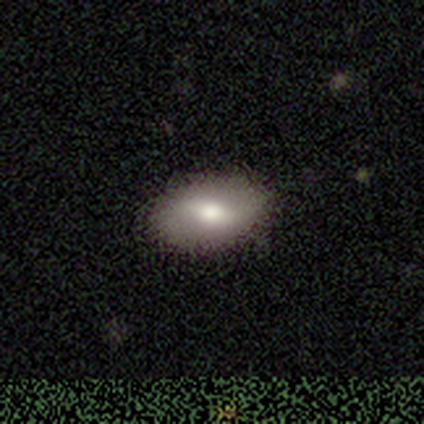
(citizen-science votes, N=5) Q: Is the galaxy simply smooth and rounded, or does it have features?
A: featured or disk — 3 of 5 (60%).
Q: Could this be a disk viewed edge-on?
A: no — 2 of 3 (67%).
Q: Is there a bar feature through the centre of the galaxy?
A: strong — 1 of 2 (50%, tied with weak).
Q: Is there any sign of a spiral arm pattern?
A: yes — 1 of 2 (50%, tied with no).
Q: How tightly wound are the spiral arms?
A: medium — 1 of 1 (100%).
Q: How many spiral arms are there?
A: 2 — 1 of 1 (100%).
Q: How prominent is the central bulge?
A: moderate — 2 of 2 (100%).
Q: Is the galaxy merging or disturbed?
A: none — 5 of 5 (100%).